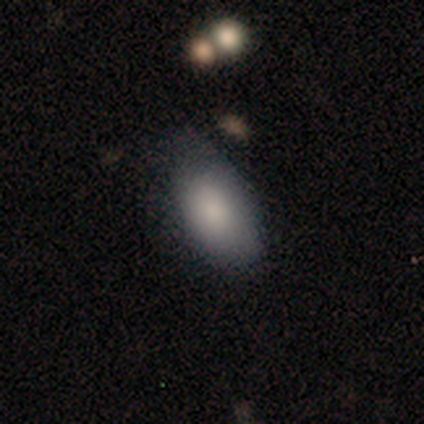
Smooth or featured? 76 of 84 (90%) said smooth. How rounded? 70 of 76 (92%) said in between. Merging? 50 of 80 (62%) said none.